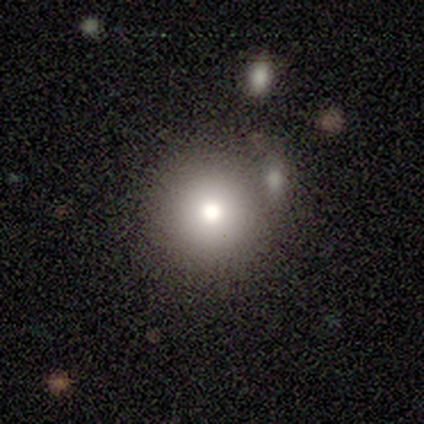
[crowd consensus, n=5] Smooth or featured?
  - smooth: 80% *
  - star or artifact: 20%
  - featured or disk: 0%
How rounded?
  - round: 100% *
  - in between: 0%
  - cigar-shaped: 0%
Merging?
  - none: 50% *
  - major disturbance: 25%
  - merger: 25%
  - minor disturbance: 0%